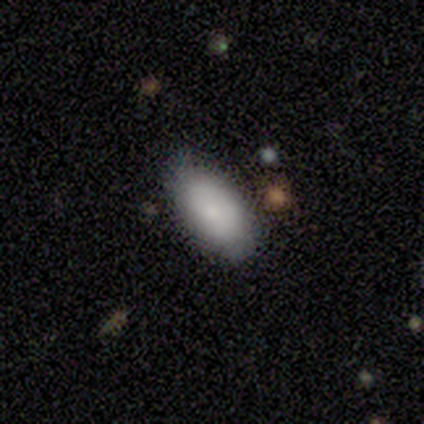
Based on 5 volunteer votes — smooth_or_featured: smooth (p=0.80) [alt: featured or disk p=0.20]
how_rounded: in between (p=0.75) [alt: cigar-shaped p=0.25]
merging: none (p=0.80) [alt: minor disturbance p=0.20]